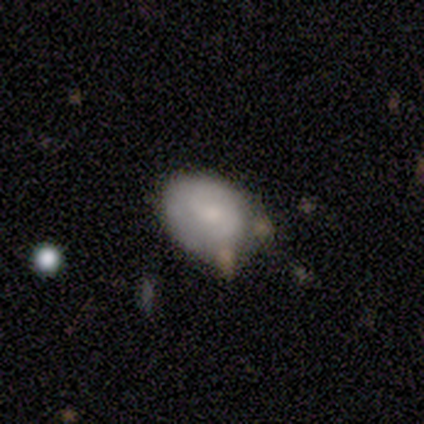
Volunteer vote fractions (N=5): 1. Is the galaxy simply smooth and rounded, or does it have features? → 60% smooth, 40% featured or disk, 0% star or artifact.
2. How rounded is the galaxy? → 100% in between, 0% round, 0% cigar-shaped.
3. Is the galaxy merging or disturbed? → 40% none (tied), 40% minor disturbance (tied), 20% major disturbance, 0% merger.